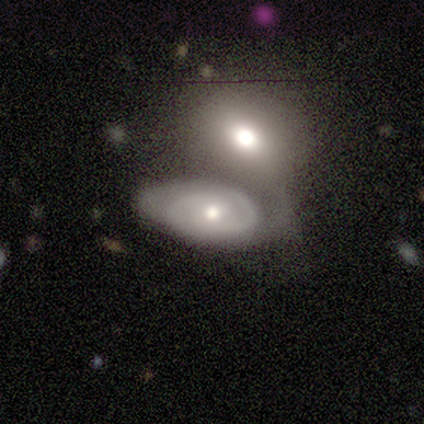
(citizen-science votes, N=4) Smooth or featured? featured or disk (75%)
Edge-on disk? no (100%)
Bar? no (100%)
Spiral arms? yes (100%)
Spiral winding? medium (100%)
Spiral arm count? 1 (33%, tied with 2 and can't tell)
Bulge size? small (67%)
Merging? merger (75%)